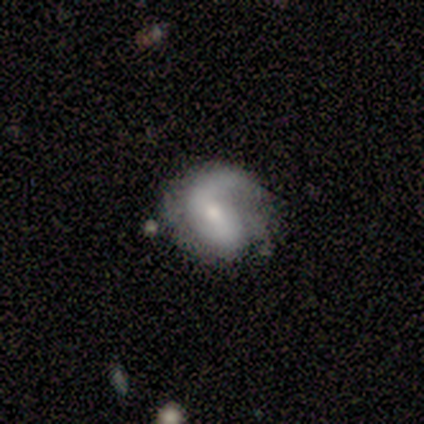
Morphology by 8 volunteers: Q: Smooth or featured?
A: smooth (50%); tied with: featured or disk (50%)
Q: How rounded?
A: round (50%); tied with: in between (50%)
Q: Merging?
A: none (62%); runner-up: minor disturbance (25%)